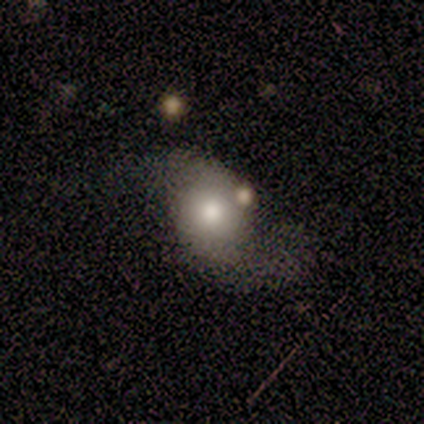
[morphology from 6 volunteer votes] type=smooth (50%); roundness=in between (67%); merging=minor disturbance (40%, tied with major disturbance).